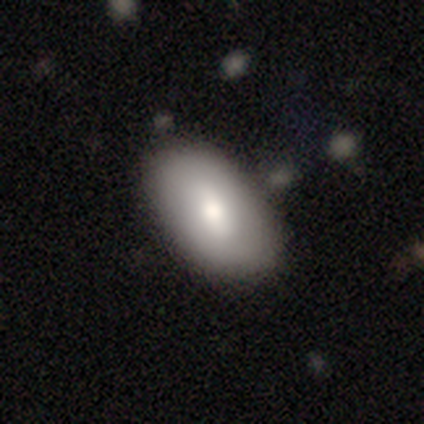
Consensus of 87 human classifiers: smooth_or_featured: smooth (p=0.77) [alt: featured or disk p=0.21]
how_rounded: in between (p=0.94) [alt: round p=0.03]
merging: none (p=0.84) [alt: minor disturbance p=0.12]